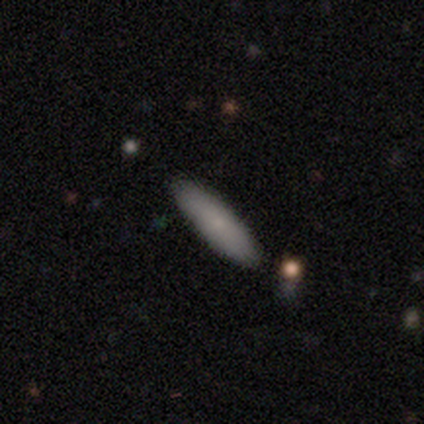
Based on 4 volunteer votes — Q: Smooth or featured?
A: smooth (75%); runner-up: featured or disk (25%)
Q: How rounded?
A: cigar-shaped (100%)
Q: Merging?
A: none (100%)